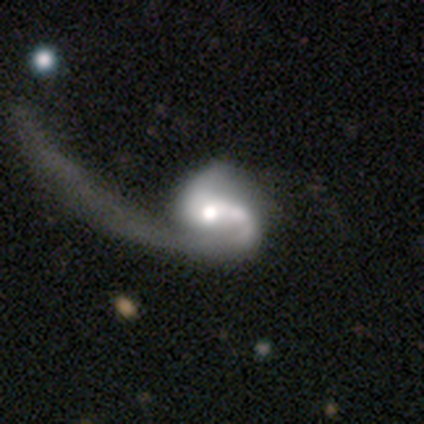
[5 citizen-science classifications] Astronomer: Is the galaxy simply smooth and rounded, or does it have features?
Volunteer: featured or disk — 80%.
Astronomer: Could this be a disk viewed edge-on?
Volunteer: no — 100%.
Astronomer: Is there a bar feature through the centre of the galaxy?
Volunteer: no — 75%.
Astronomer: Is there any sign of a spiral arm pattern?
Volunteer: yes — 75%.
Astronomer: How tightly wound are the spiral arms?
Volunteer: tight — 33%, tied with medium and loose at 33%.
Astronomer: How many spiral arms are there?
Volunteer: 1 — 100%.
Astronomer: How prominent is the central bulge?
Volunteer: moderate — 100%.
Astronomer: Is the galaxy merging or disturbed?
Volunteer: none — 40%, tied with major disturbance at 40%.